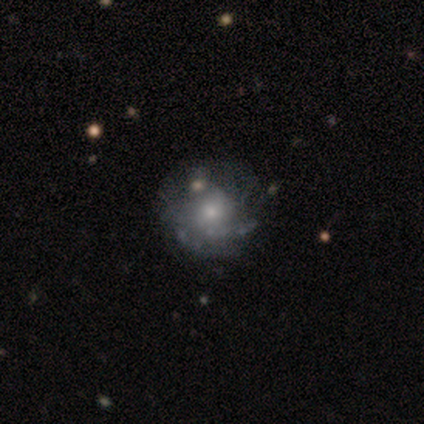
Overall: featured or disk (60%; smooth 40%). Edge-on disk: no (100%). Bar: no (100%). Spiral arms: yes (100%). Spiral arm count: 3 (33%, tied with more than 4 and can't tell). Spiral winding: medium (67%; tight 33%). Bulge size: moderate (67%; small 33%). Merging: none (60%; minor disturbance 40%).